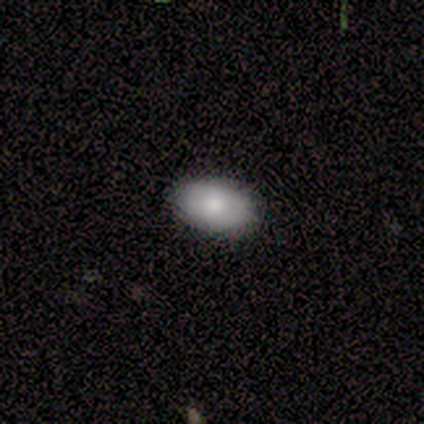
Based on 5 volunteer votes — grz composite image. It shows a smooth galaxy with no disk features (100%) that is in between round and cigar-shaped (100%). Merging: none (80%).